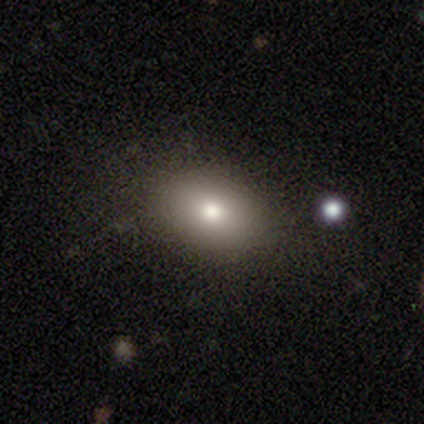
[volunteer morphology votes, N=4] Overall: smooth (100%). How rounded: in between (75%). Merging: none (100%).